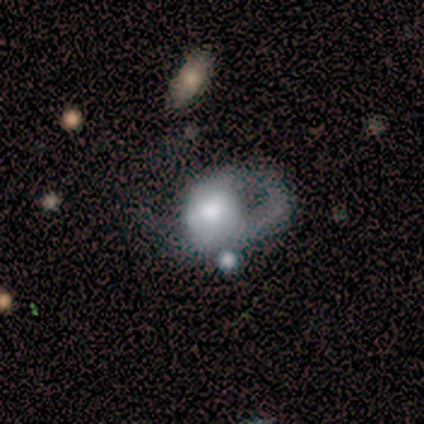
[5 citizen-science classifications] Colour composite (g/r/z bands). It shows a smooth galaxy with no disk features (60%) that is in between round and cigar-shaped (100%). Merging: major disturbance (60%).